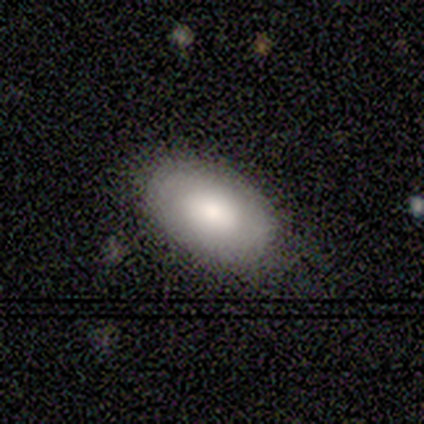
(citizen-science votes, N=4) smooth_or_featured: smooth (p=1.00)
how_rounded: in between (p=1.00)
merging: none (p=1.00)